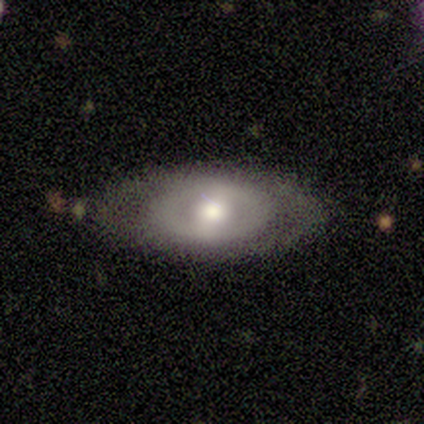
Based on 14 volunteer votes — This is likely a featured or disk galaxy (71%). It is clearly not viewed edge-on (100%). Bar: likely no (60%). Spiral arm pattern: clearly no (80%). Central bulge: marginally large (40%, tied with moderate). Merging: likely none (79%).